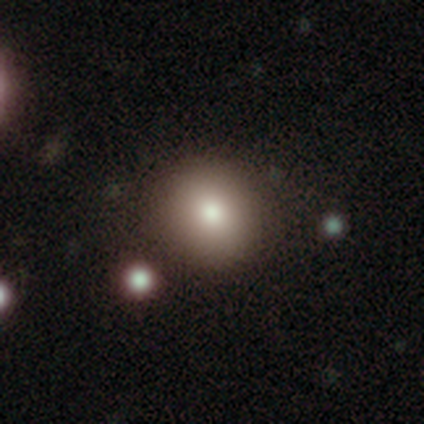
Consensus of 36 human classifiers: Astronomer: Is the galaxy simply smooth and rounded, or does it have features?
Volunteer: smooth — 86%.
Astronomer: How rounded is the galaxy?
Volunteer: round — 90%.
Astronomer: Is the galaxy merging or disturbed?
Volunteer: none — 87%.